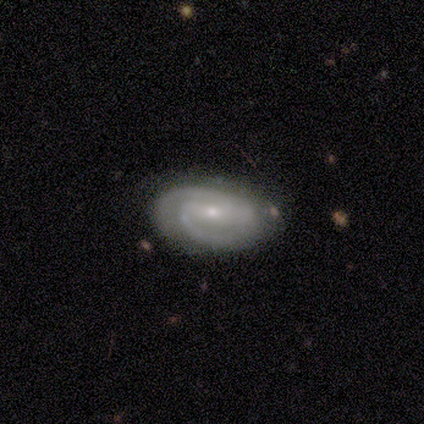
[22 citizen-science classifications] Volunteers were most divided on "bar": weak: 47%, no: 29%, strong: 24%. Remaining: spiral arms — yes (100%); edge-on disk — no (94%); smooth or featured — featured or disk (82%); merging — none (80%); bulge size — small (76%); spiral arm count — 2 (59%); spiral winding — medium (47%).